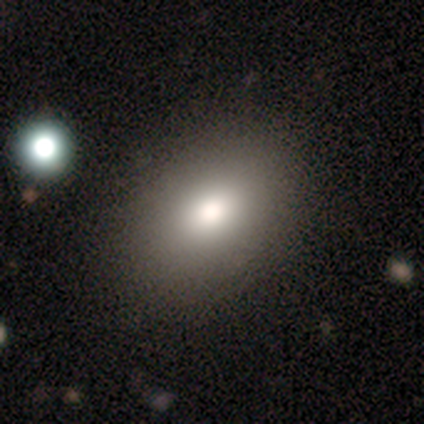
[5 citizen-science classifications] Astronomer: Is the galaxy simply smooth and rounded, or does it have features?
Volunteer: smooth — 80%.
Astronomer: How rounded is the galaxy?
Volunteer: round — 50%, tied with in between at 50%.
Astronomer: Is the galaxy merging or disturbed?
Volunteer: none — 50%.